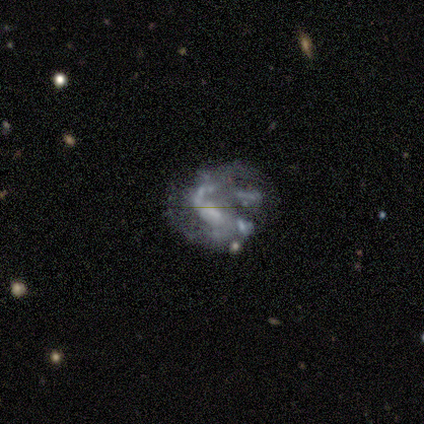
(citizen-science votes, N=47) Smooth or featured? featured or disk (89%)
Edge-on disk? no (90%)
Bar? no (47%)
Spiral arms? yes (68%)
Spiral winding? loose (46%)
Spiral arm count? 2 (62%)
Bulge size? small (39%)
Merging? major disturbance (37%)